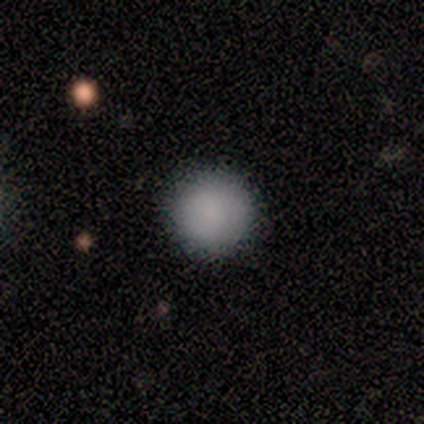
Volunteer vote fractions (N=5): This is clearly a smooth galaxy (80%). How rounded: clearly round (100%). Merging: clearly none (80%).